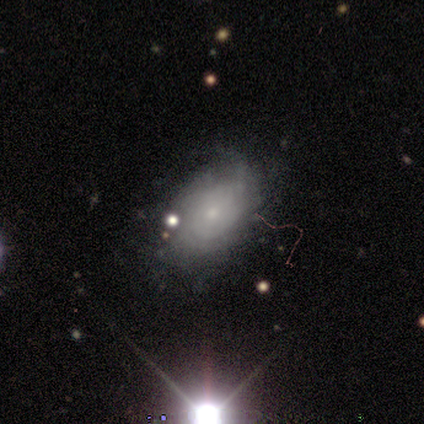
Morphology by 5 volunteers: smooth-or-featured: featured or disk: 100% | smooth: 0% | star or artifact: 0%
  disk-edge-on: no: 80% | yes: 20%
    bar: no: 100% | strong: 0% | weak: 0%
    has-spiral-arms: yes: 75% | no: 25%
      spiral-winding: tight: 67% | medium: 33% | loose: 0%
      spiral-arm-count: 3: 33% (tied) | 4: 33% (tied) | more than 4: 33% (tied) | 1: 0% | 2: 0% | can't tell: 0%
    bulge-size: small: 100% | dominant: 0% | large: 0% | moderate: 0% | none: 0%
  merging: none: 60% | minor disturbance: 20% | major disturbance: 20% | merger: 0%